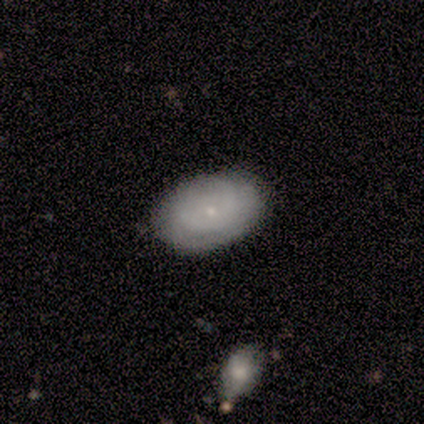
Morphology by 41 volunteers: Smooth or featured? featured or disk (61%)
Edge-on disk? no (100%)
Bar? no (72%)
Spiral arms? yes (72%)
Spiral winding? tight (67%)
Spiral arm count? can't tell (67%)
Bulge size? small (96%)
Merging? none (90%)